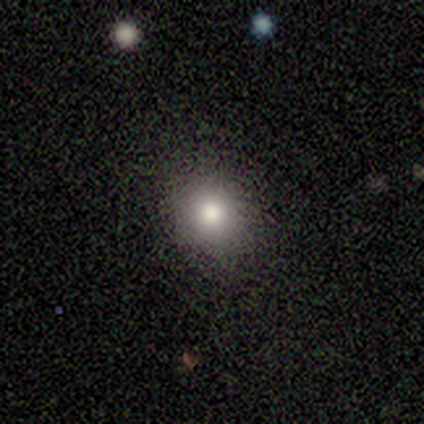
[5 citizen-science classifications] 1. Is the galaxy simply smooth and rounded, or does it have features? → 80% smooth, 20% star or artifact, 0% featured or disk.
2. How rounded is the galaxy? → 50% round (tied), 50% in between (tied), 0% cigar-shaped.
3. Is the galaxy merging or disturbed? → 75% none, 25% minor disturbance, 0% major disturbance, 0% merger.